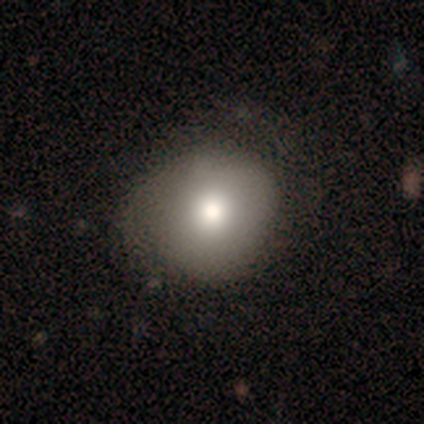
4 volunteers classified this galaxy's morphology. Smooth or featured? smooth (75%)
How rounded? round (100%)
Merging? minor disturbance (50%)